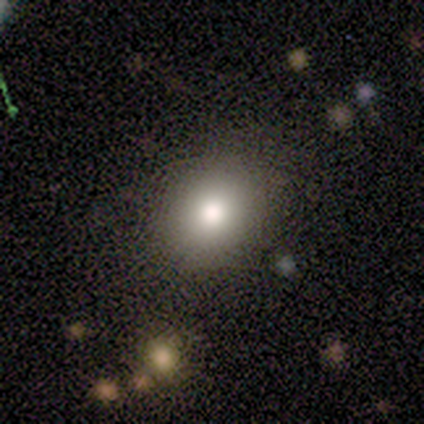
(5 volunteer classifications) Smooth or featured?
  - smooth: 100% *
  - featured or disk: 0%
  - star or artifact: 0%
How rounded?
  - round: 60% *
  - in between: 40%
  - cigar-shaped: 0%
Merging?
  - none: 100% *
  - minor disturbance: 0%
  - major disturbance: 0%
  - merger: 0%